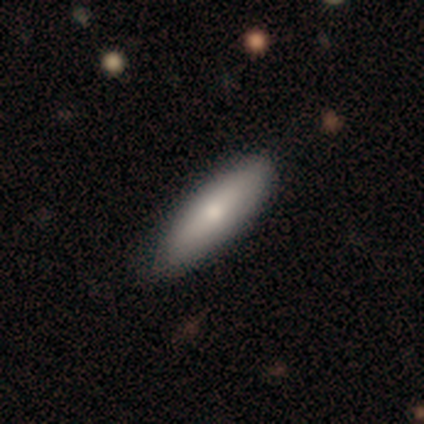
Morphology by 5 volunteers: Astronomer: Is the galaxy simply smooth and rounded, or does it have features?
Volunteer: smooth — 80%.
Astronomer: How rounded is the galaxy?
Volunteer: cigar-shaped — 75%.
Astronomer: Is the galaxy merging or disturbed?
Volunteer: none — 100%.